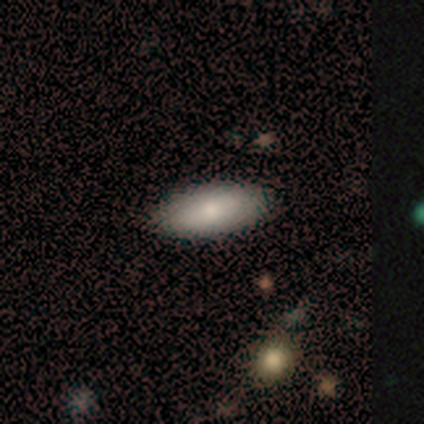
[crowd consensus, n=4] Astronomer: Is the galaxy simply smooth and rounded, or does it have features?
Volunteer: smooth — 100%.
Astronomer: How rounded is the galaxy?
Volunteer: in between — 100%.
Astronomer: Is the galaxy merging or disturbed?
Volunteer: none — 100%.